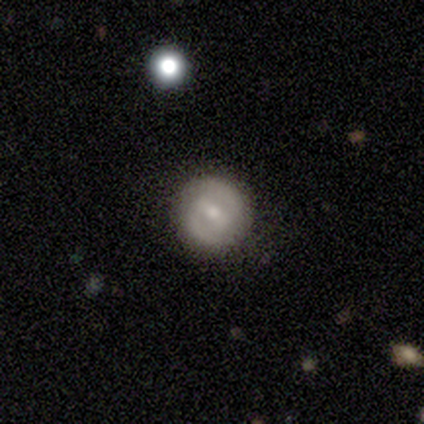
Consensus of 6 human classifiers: This appears to be a featured or disk galaxy (83%) with a strong bar (40%, tied with weak), 2 (100%) tight (75%) spiral arms (80%) and a moderate central bulge (80%). Merging: none (60%).